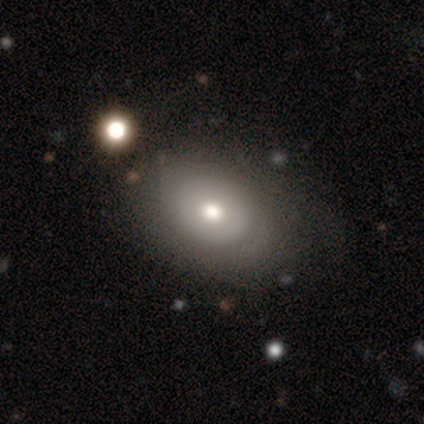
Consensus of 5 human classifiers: Smooth or featured? 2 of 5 (40%, tied with featured or disk) said smooth. How rounded? 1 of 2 (50%, tied with in between) said round. Merging? 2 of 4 (50%) said none.